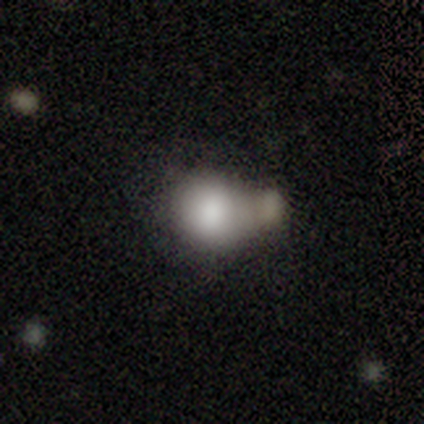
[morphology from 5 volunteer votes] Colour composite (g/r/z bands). It shows a smooth galaxy with no disk features (100%) that is round (100%). Merging: merger (60%).